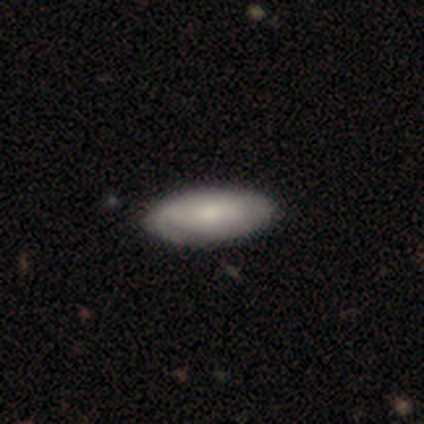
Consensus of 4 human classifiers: Smooth or featured? smooth (75%)
How rounded? in between (100%)
Merging? minor disturbance (75%)